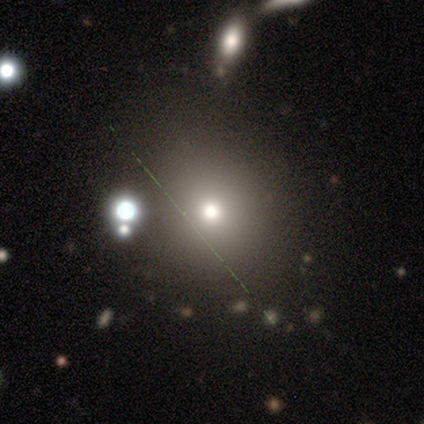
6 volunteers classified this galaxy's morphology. smooth_or_featured: smooth (p=0.67) [alt: featured or disk p=0.17]
how_rounded: round (p=0.75) [alt: in between p=0.25]
merging: none (p=0.80) [alt: minor disturbance p=0.20]